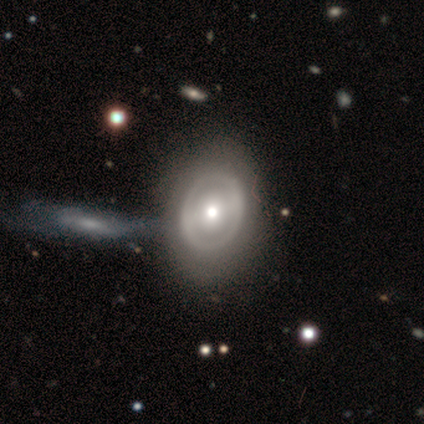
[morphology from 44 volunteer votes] Smooth or featured? 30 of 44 (68%) said featured or disk. Edge-on disk? 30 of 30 (100%) said no. Bar? 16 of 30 (53%) said no. Spiral arms? 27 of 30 (90%) said no. Bulge size? 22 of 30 (73%) said moderate. Merging? 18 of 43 (42%) said merger.